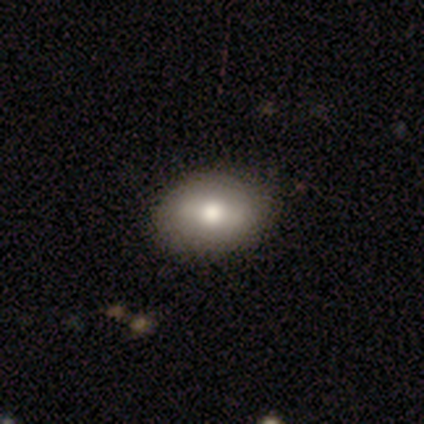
Overall: smooth (50%, tied with featured or disk). How rounded: in between (100%). Merging: none (100%).